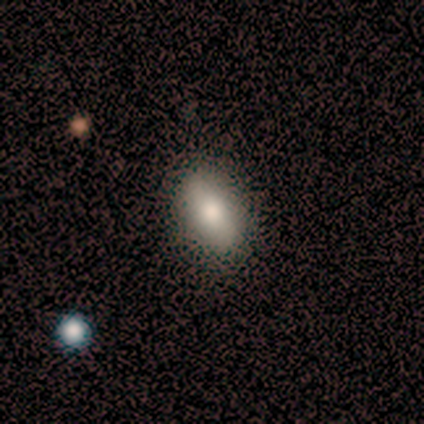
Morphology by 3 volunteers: type=smooth (67%); roundness=in between (100%); merging=minor disturbance (67%).